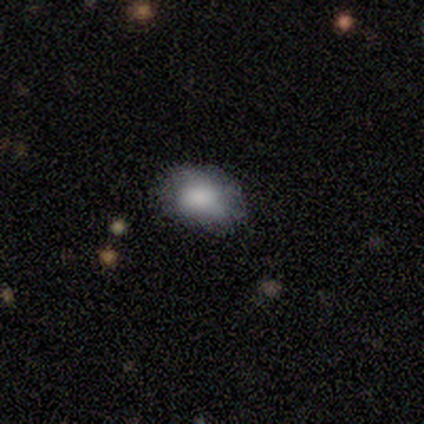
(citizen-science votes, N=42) smooth-or-featured: smooth: 81% | featured or disk: 10% | star or artifact: 10%
  how-rounded: in between: 85% | round: 15% | cigar-shaped: 0%
  merging: none: 71% | minor disturbance: 24% | major disturbance: 5% | merger: 0%